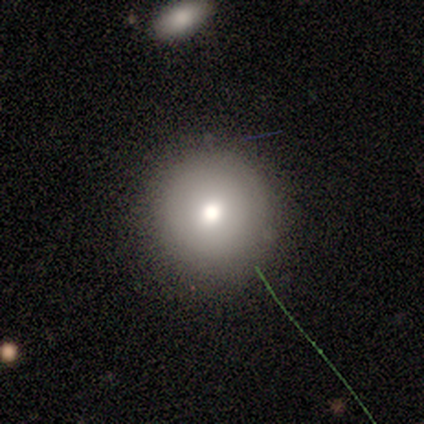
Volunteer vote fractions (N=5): This appears to be a smooth galaxy with no disk features (80%) that is round (100%). Merging: none (100%).